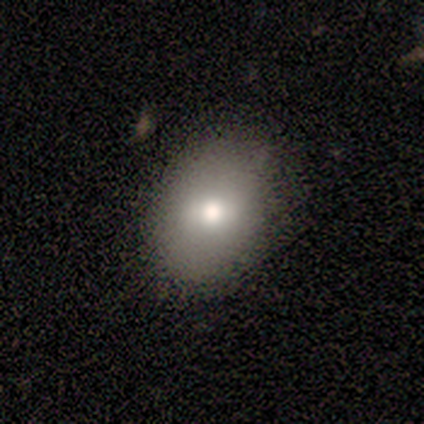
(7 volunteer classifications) smooth 71%, featured or disk 29%, star or artifact 0%. Down the decision tree: how rounded — in between (80%); merging — none (86%).